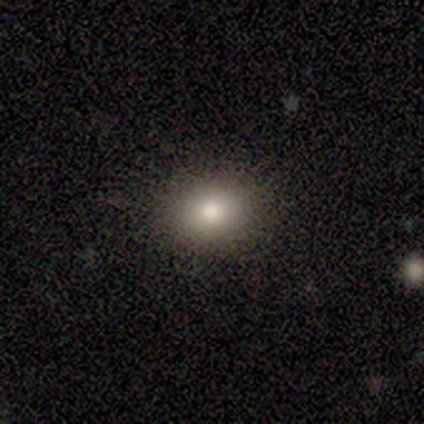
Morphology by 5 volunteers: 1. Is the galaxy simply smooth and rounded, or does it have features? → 100% smooth, 0% featured or disk, 0% star or artifact.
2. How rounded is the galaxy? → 60% round, 40% in between, 0% cigar-shaped.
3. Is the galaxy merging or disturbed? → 100% none, 0% minor disturbance, 0% major disturbance, 0% merger.